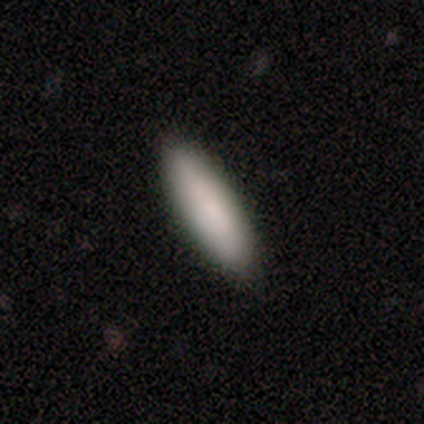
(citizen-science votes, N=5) A smooth galaxy with no disk features (80%) that is in between round and cigar-shaped (50%, tied with cigar-shaped).

Vote fractions:
- Smooth or featured? smooth: 80% / star or artifact: 20% / featured or disk: 0%
- How rounded? in between: 50% (tied) / cigar-shaped: 50% (tied) / round: 0%
- Merging? none: 100% / minor disturbance: 0% / major disturbance: 0% / merger: 0%